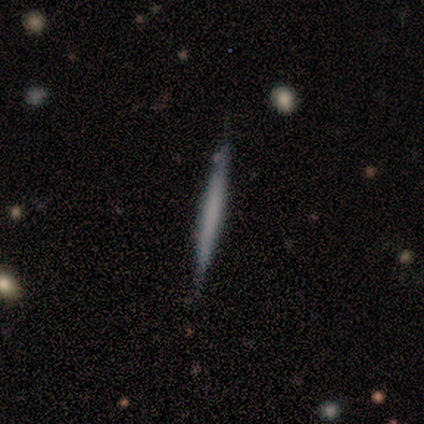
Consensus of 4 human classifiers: smooth_or_featured: featured or disk (p=1.00)
disk_edge_on: yes (p=1.00)
edge_on_bulge: none (p=1.00)
merging: none (p=1.00)